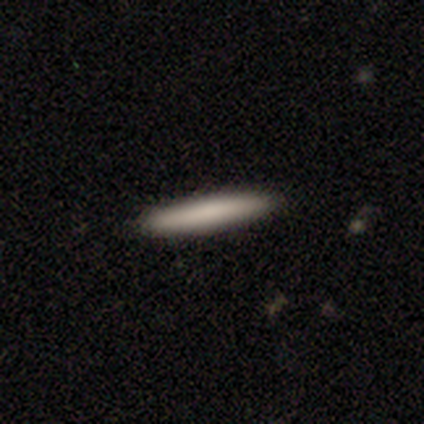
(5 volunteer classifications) A smooth galaxy with no disk features (100%) that is cigar-shaped (100%).

Vote fractions:
- Smooth or featured? smooth: 100% / featured or disk: 0% / star or artifact: 0%
- How rounded? cigar-shaped: 100% / round: 0% / in between: 0%
- Merging? none: 100% / minor disturbance: 0% / major disturbance: 0% / merger: 0%